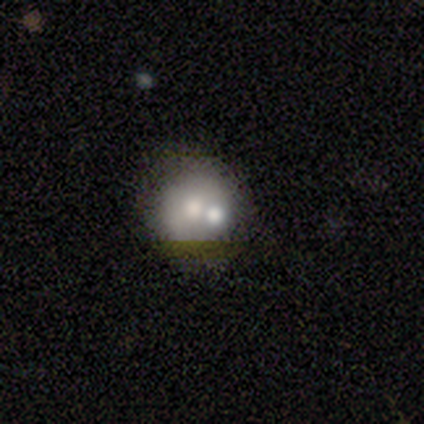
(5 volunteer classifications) Morphology: type=featured or disk (60%); edge-on=no (100%); bar=no (100%); spiral arms=no (100%); bulge=small (67%); merging=merger (40%).